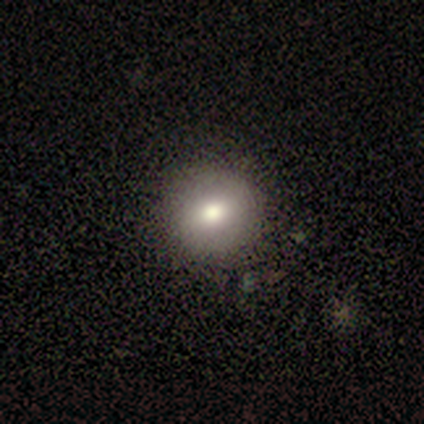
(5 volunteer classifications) smooth 80%, featured or disk 20%, star or artifact 0%. Down the decision tree: how rounded — round (100%); merging — none (80%).